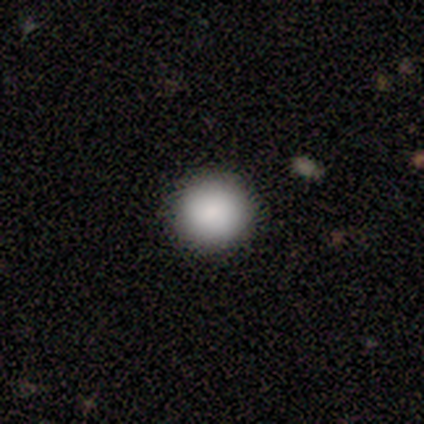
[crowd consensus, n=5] Consensus on every question: smooth or featured — smooth (100%); how rounded — round (100%); merging — none (100%).